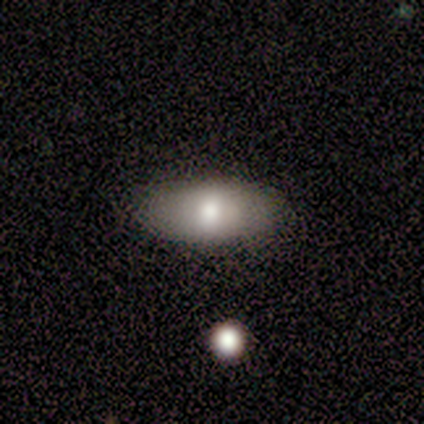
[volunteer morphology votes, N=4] smooth_or_featured: smooth (p=0.50) [tied with: featured or disk p=0.50]
how_rounded: in between (p=1.00)
merging: none (p=1.00)